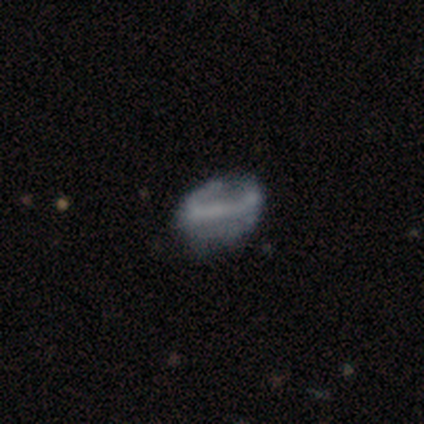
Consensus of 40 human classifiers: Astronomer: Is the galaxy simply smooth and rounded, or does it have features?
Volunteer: featured or disk — 57% (runner-up: smooth, 35%).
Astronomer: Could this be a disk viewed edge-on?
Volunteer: no — 83%.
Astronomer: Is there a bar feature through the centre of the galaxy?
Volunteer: strong — 58% (runner-up: no, 37%).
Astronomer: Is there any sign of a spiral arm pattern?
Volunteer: no — 58% (runner-up: yes, 42%).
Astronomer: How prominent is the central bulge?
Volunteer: none — 58%.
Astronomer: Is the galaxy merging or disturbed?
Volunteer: none — 51% (runner-up: minor disturbance, 32%).